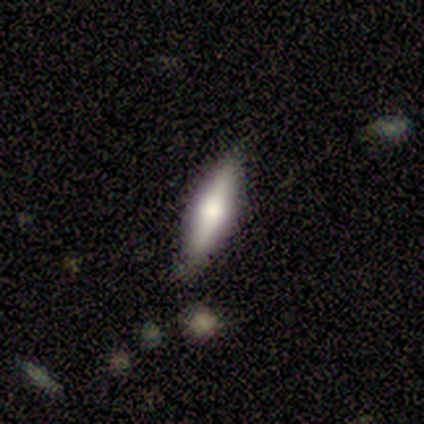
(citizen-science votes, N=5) This appears to be a smooth galaxy with no disk features (60%) that is cigar-shaped (67%). Merging: none (80%).